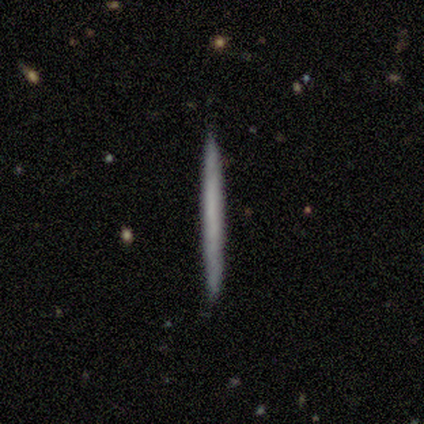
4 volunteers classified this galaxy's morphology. This is likely a smooth galaxy (75%). How rounded: clearly cigar-shaped (100%). Merging: likely none (75%).